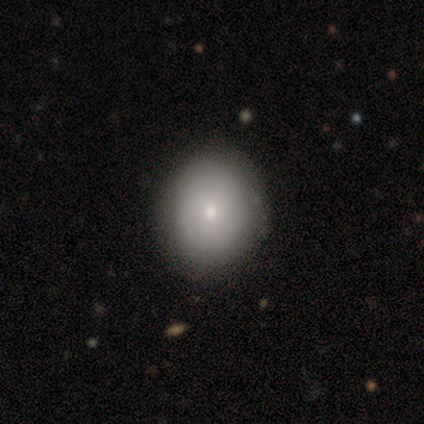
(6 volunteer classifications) A smooth galaxy with no disk features (67%) that is round (50%, tied with in between).

Vote fractions:
- Smooth or featured? smooth: 67% / featured or disk: 33% / star or artifact: 0%
- How rounded? round: 50% (tied) / in between: 50% (tied) / cigar-shaped: 0%
- Merging? none: 67% / minor disturbance: 17% / merger: 17% / major disturbance: 0%